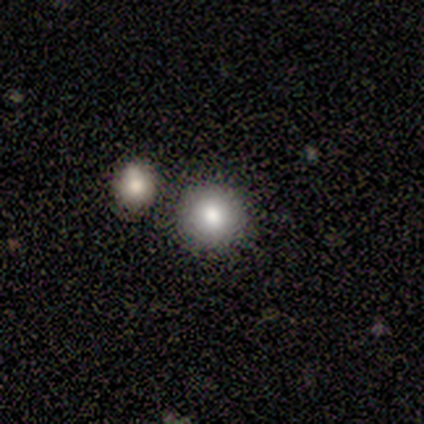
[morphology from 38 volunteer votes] smooth 74%, star or artifact 16%, featured or disk 11%. Down the decision tree: how rounded — round (93%); merging — none (81%).